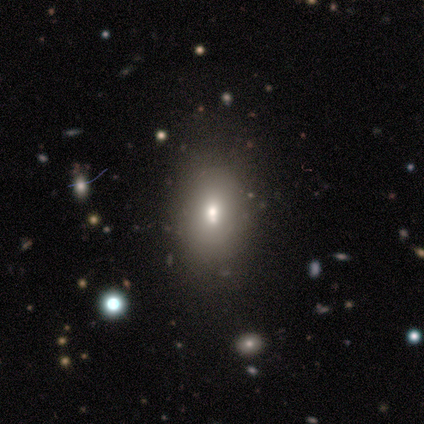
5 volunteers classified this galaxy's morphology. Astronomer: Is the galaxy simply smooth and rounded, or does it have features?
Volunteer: smooth — 100%.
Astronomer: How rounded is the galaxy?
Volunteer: in between — 100%.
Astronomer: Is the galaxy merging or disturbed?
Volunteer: none — 80%.